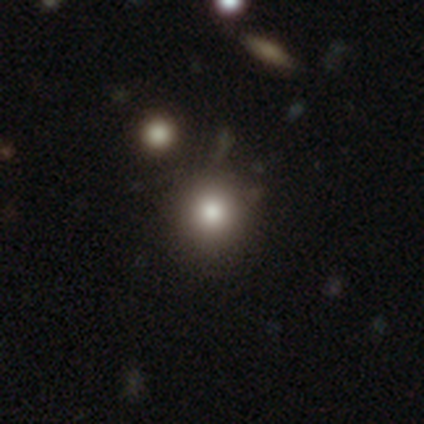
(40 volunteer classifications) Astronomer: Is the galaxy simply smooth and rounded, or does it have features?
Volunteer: smooth — 65%.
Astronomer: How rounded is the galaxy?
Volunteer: round — 92%.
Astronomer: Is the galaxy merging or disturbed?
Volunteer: none — 82%.